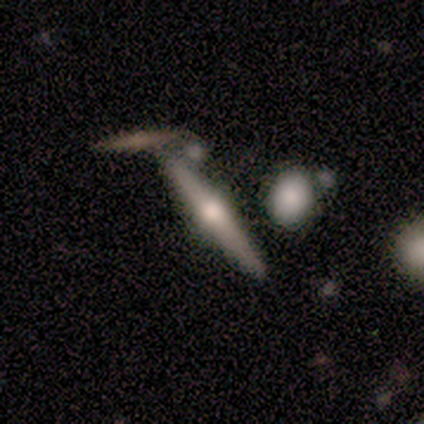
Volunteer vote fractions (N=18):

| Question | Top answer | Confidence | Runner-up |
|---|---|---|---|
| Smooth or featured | featured or disk | 83% | smooth (17%) |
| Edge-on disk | yes | 100% | — |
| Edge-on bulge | rounded | 93% | none (7%) |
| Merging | none | 61% | merger (22%) |